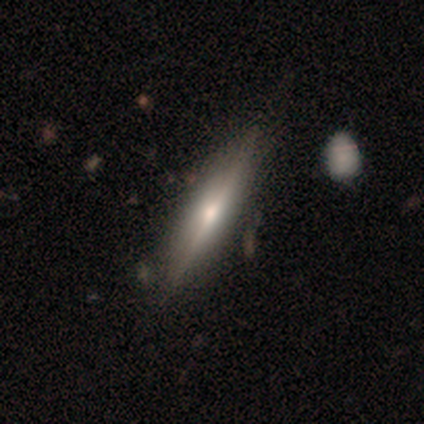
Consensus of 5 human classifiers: smooth_or_featured: featured or disk (p=0.80) [alt: smooth p=0.20]
disk_edge_on: yes (p=1.00)
edge_on_bulge: none (p=0.50) [alt: boxy p=0.25]
merging: none (p=1.00)